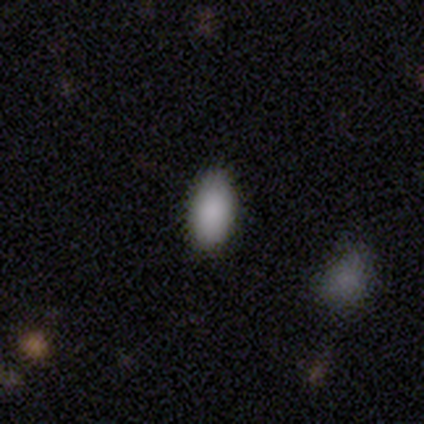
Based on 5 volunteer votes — Morphology: type=smooth (80%); roundness=in between (100%); merging=none (50%, tied with minor disturbance).